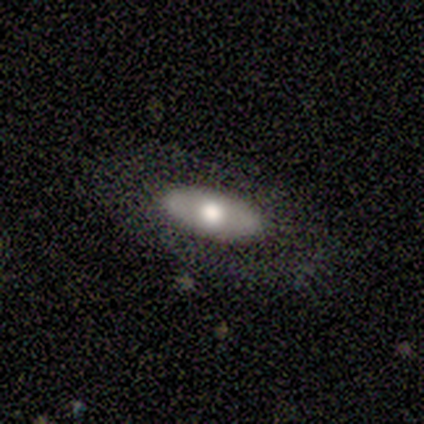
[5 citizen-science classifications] Morphology: type=smooth (100%); roundness=in between (100%); merging=none (80%).